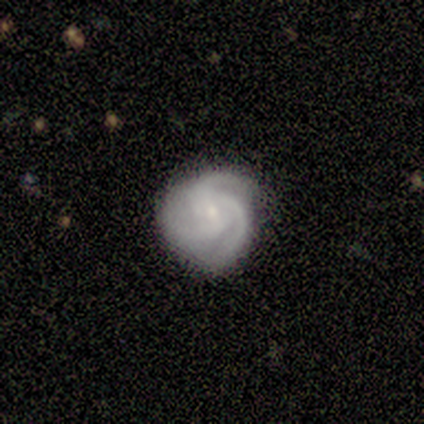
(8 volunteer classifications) Morphology: type=featured or disk (88%); edge-on=no (100%); bar=weak (57%); spiral arms=yes (100%); winding=loose (43%); arm count=3 (86%); bulge=small (71%); merging=none (75%).